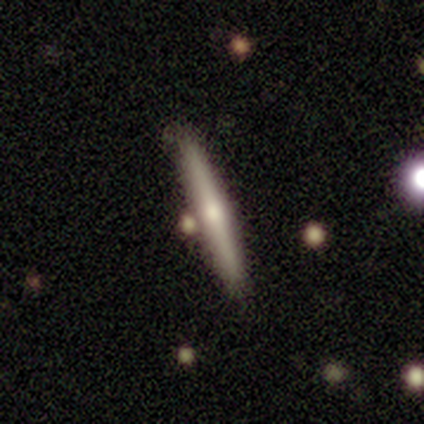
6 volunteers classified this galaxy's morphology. smooth-or-featured: featured or disk: 100% | smooth: 0% | star or artifact: 0%
  disk-edge-on: yes: 100% | no: 0%
    edge-on-bulge: rounded: 83% | none: 17% | boxy: 0%
  merging: none: 83% | minor disturbance: 17% | major disturbance: 0% | merger: 0%